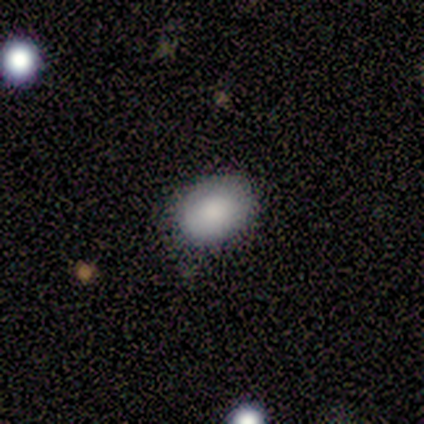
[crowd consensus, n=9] smooth 67%, featured or disk 22%, star or artifact 11%. Down the decision tree: how rounded — round (50%, tied with in between); merging — none (88%).